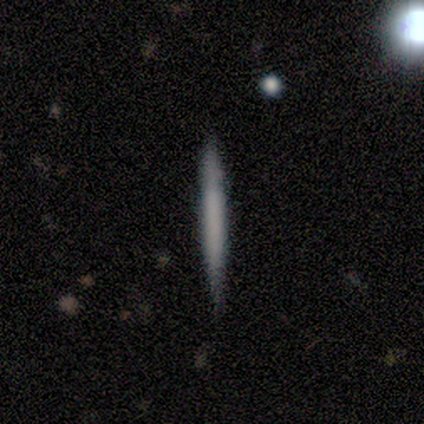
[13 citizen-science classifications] A smooth galaxy with no disk features (69%) that is cigar-shaped (100%).

Vote fractions:
- Smooth or featured? smooth: 69% / featured or disk: 31% / star or artifact: 0%
- How rounded? cigar-shaped: 100% / round: 0% / in between: 0%
- Merging? none: 77% / major disturbance: 15% / minor disturbance: 8% / merger: 0%